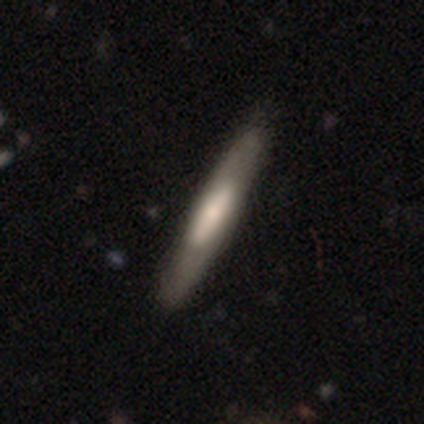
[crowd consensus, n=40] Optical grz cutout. It shows a featured or disk galaxy (57%) viewed edge-on (74%) with a boxy central bulge (35%, tied with rounded). Merging: none (49%).